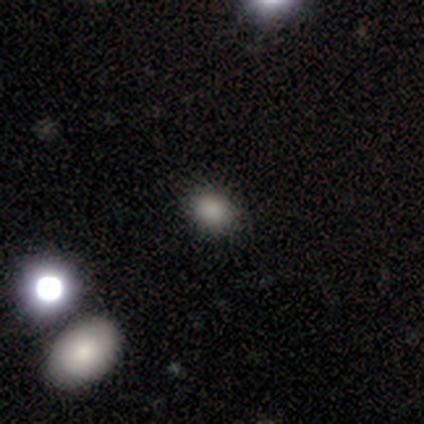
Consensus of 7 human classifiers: smooth-or-featured: smooth: 86% | star or artifact: 14% | featured or disk: 0%
  how-rounded: round: 50% (tied) | in between: 50% (tied) | cigar-shaped: 0%
  merging: none: 83% | minor disturbance: 17% | major disturbance: 0% | merger: 0%